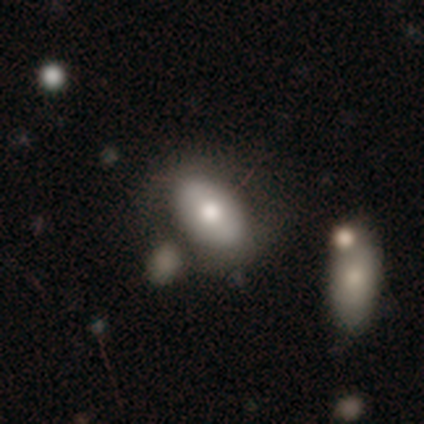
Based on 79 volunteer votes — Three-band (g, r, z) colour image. It shows a smooth galaxy with no disk features (80%) that is in between round and cigar-shaped (95%). Merging: none (28%).